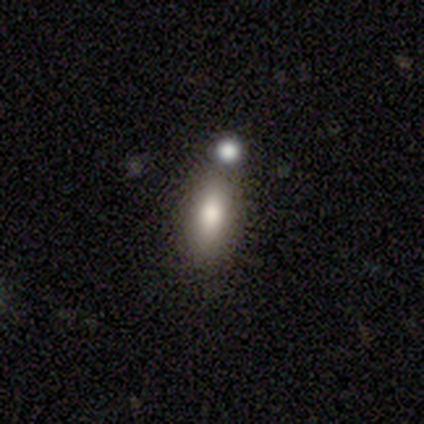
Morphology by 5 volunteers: Q: Smooth or featured?
A: smooth (100%)
Q: How rounded?
A: in between (60%); runner-up: cigar-shaped (40%)
Q: Merging?
A: none (60%); runner-up: merger (40%)